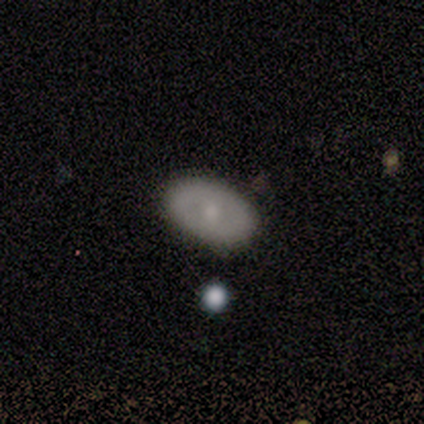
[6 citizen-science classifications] Volunteers were most divided on "smooth or featured" (2-way tie): smooth: 50%, featured or disk: 50%, star or artifact: 0%. More confident: how rounded — in between (100%); merging — none (100%).